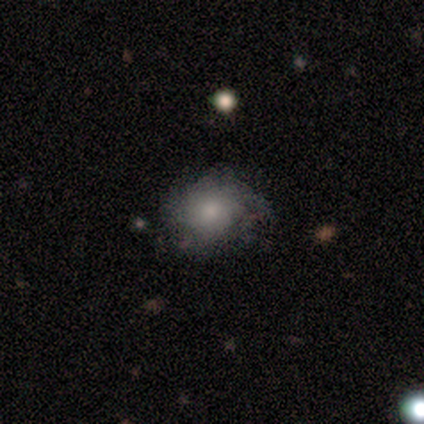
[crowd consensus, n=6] This appears to be a smooth galaxy with no disk features (50%, tied with featured or disk) that is round (67%). Merging: none (50%, tied with minor disturbance).